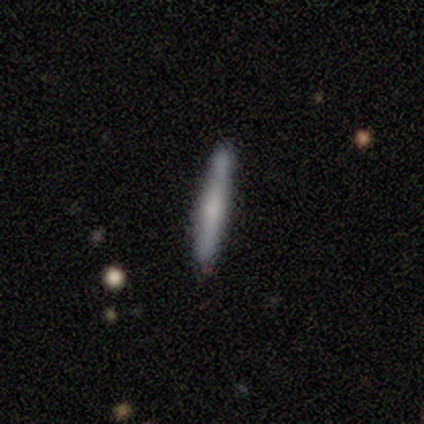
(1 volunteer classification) featured or disk 100%, smooth 0%, star or artifact 0%. Down the decision tree: edge-on disk — yes (100%); edge-on bulge — rounded (100%); merging — none (100%).